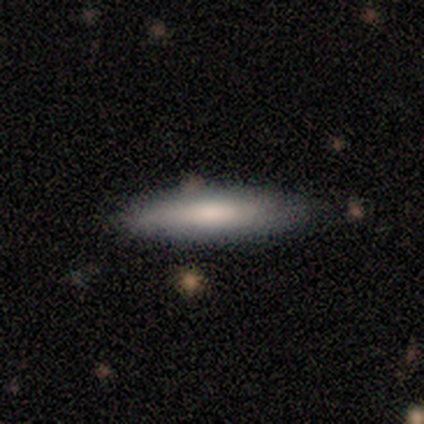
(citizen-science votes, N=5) Overall: smooth (60%; featured or disk 40%). How rounded: cigar-shaped (67%; in between 33%). Merging: none (100%).